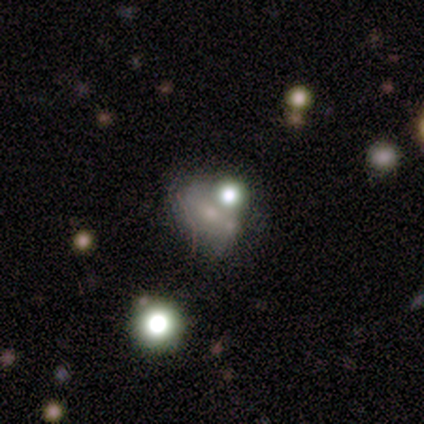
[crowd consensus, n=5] Smooth or featured: smooth — 40% (tied with star or artifact — 40%)
How rounded: in between — 100%
Merging: none — 100%